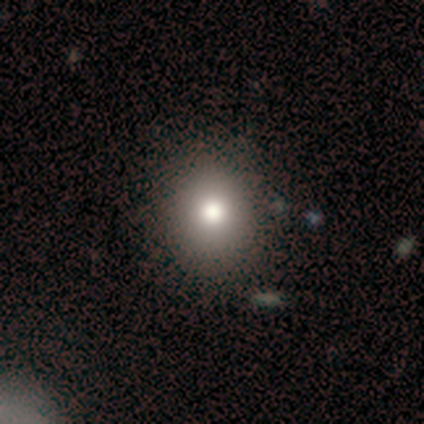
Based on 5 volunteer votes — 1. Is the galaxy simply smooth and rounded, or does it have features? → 100% smooth, 0% featured or disk, 0% star or artifact.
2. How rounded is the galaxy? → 60% round, 40% in between, 0% cigar-shaped.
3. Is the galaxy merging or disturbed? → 80% none, 20% minor disturbance, 0% major disturbance, 0% merger.